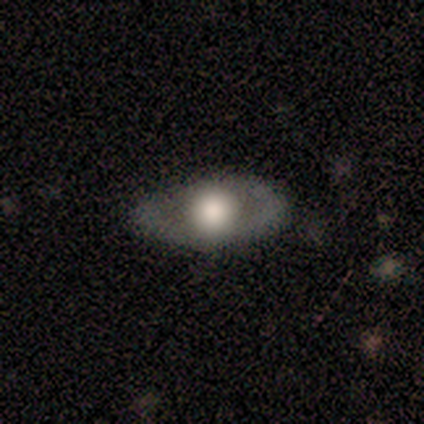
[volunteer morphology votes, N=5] Volunteers were most divided on "smooth or featured": smooth: 60%, featured or disk: 40%, star or artifact: 0%. More confident: how rounded — in between (100%); merging — none (100%).